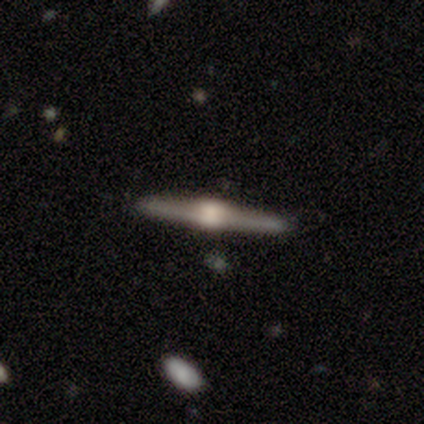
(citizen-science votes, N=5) A featured or disk galaxy (100%) viewed edge-on (80%) with a rounded central bulge (75%).

Vote fractions:
- Smooth or featured? featured or disk: 100% / smooth: 0% / star or artifact: 0%
- Edge-on disk? yes: 80% / no: 20%
- Edge-on bulge? rounded: 75% / boxy: 25% / none: 0%
- Merging? none: 100% / minor disturbance: 0% / major disturbance: 0% / merger: 0%